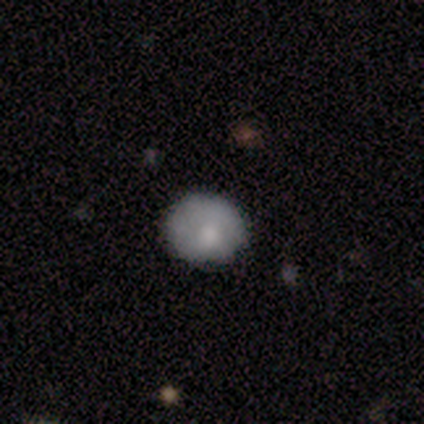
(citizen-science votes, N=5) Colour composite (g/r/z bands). It shows a smooth galaxy with no disk features (60%) that is round (100%). Merging: none (80%).